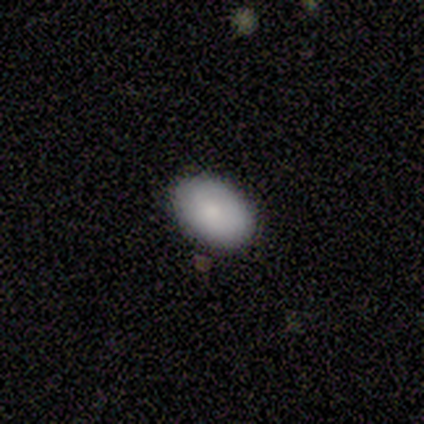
Volunteers were most divided on "merging" (2-way tie): none: 50%, minor disturbance: 50%, major disturbance: 0%, merger: 0%. More confident: how rounded — in between (100%); smooth or featured — smooth (80%).